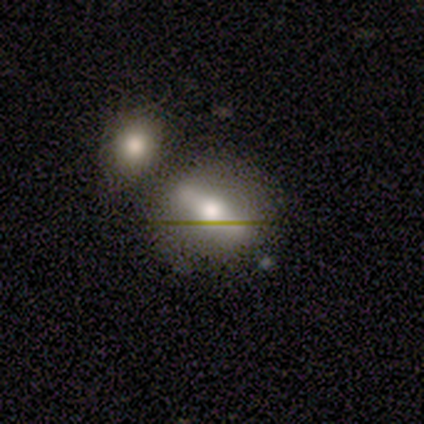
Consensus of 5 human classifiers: Q: Smooth or featured?
A: smooth (80%); runner-up: star or artifact (20%)
Q: How rounded?
A: round (75%); runner-up: in between (25%)
Q: Merging?
A: none (100%)